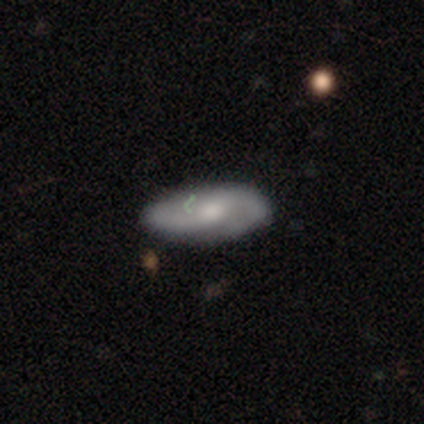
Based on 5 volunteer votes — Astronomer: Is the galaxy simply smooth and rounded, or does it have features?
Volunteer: featured or disk — 60% (runner-up: smooth, 40%).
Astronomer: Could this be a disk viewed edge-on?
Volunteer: no — 100%.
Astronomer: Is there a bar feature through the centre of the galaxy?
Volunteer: no — 100%.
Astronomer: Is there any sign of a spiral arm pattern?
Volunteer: yes — 67%.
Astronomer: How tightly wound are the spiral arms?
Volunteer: medium — 50%, tied with loose at 50%.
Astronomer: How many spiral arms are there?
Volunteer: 2 — 50%, tied with can't tell at 50%.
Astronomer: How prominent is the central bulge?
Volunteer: moderate — 100%.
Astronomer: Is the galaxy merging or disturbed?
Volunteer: none — 100%.